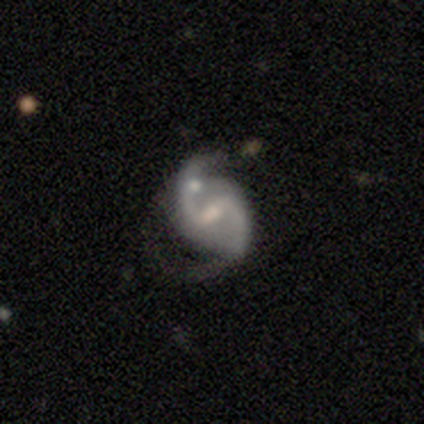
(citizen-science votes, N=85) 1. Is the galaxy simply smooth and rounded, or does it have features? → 94% featured or disk, 6% star or artifact, 0% smooth.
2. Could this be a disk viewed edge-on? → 98% no, 2% yes.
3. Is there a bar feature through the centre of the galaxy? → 63% weak, 36% strong, 1% no.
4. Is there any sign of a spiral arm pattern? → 97% yes, 3% no.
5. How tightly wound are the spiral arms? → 55% loose, 39% medium, 5% tight.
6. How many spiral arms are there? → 96% 2, 3% can't tell, 1% 3, 0% 1, 0% 4, 0% more than 4.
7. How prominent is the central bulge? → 38% moderate, 32% small, 24% none, 5% large, 0% dominant.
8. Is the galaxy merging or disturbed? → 50% none, 21% minor disturbance, 21% major disturbance, 8% merger.